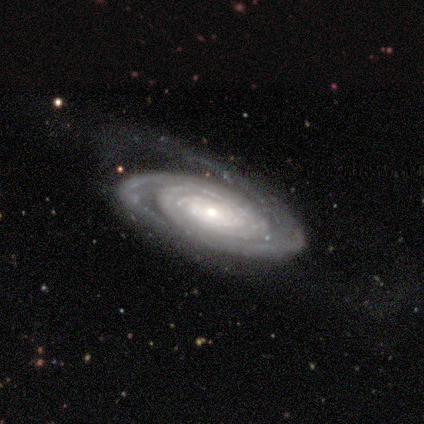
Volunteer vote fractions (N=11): Volunteers were most divided on "merging" (2-way tie): none: 40%, major disturbance: 40%, minor disturbance: 20%, merger: 0%. More confident: spiral arms — yes (100%); edge-on disk — no (88%); bar — no (86%); smooth or featured — featured or disk (73%); spiral winding — tight (71%); bulge size — small (57%); spiral arm count — 2 (57%).